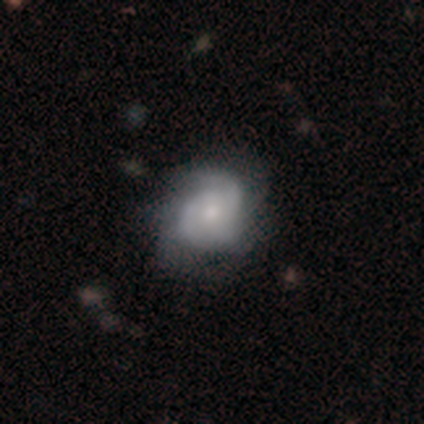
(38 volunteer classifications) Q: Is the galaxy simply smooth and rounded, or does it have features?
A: featured or disk — 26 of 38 (68%).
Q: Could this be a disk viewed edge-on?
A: no — 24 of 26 (92%).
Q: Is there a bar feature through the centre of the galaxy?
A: no — 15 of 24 (62%).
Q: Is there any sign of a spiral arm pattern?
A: yes — 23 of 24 (96%).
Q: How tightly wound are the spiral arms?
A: tight — 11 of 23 (48%).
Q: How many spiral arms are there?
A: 2 — 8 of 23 (35%, tied with can't tell).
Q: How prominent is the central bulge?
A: small — 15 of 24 (62%).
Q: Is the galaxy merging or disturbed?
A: none — 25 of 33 (76%).